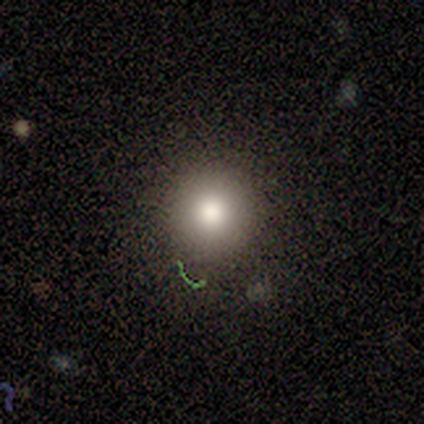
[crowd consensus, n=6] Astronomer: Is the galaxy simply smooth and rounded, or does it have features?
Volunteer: smooth — 67%.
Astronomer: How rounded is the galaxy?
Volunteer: round — 100%.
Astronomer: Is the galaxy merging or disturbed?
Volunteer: none — 83%.